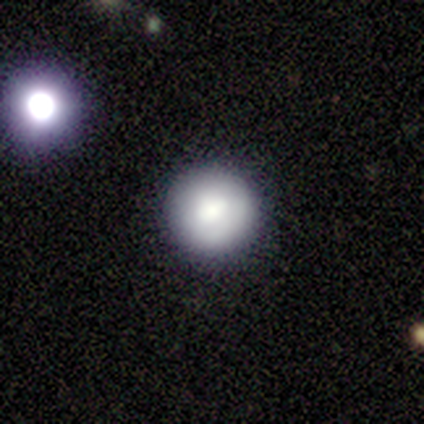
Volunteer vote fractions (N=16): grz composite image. It shows a smooth galaxy with no disk features (69%) that is round (91%). Merging: none (92%).